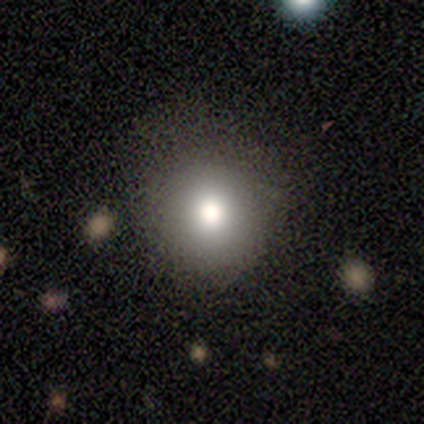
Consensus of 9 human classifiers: Q: Smooth or featured?
A: smooth (89%); runner-up: star or artifact (11%)
Q: How rounded?
A: round (100%)
Q: Merging?
A: none (88%); runner-up: minor disturbance (12%)